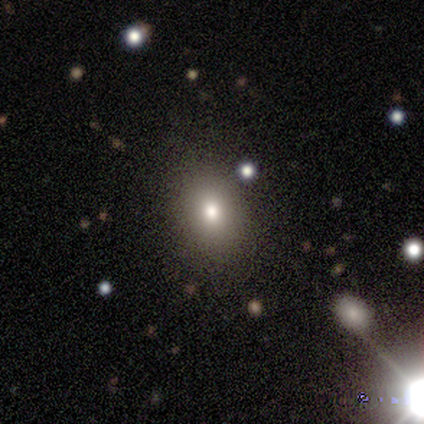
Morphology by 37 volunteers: Overall: smooth (73%). How rounded: in between (59%; round 41%). Merging: none (87%).